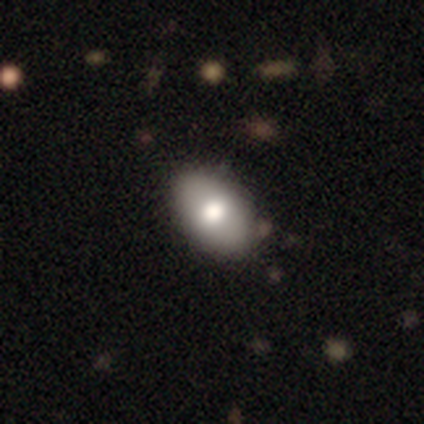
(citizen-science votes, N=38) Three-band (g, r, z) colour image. It shows a smooth galaxy with no disk features (71%) that is in between round and cigar-shaped (96%). Merging: none (64%).